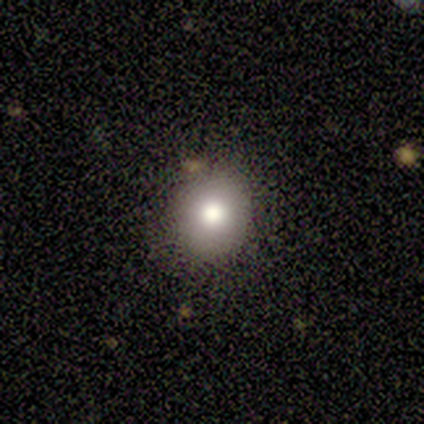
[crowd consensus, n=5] smooth 80%, featured or disk 20%, star or artifact 0%. Down the decision tree: how rounded — round (100%); merging — none (80%).